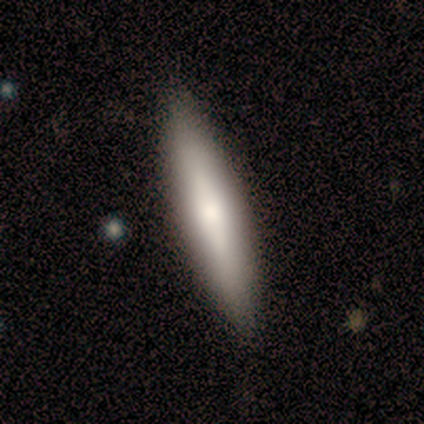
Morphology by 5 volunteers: smooth 100%, featured or disk 0%, star or artifact 0%. Down the decision tree: how rounded — cigar-shaped (80%); merging — none (100%).